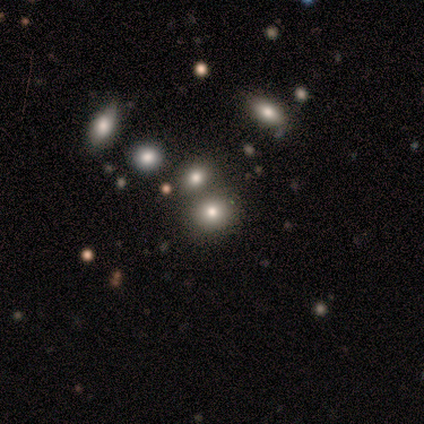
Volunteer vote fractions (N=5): Smooth or featured?
  - smooth: 80% *
  - star or artifact: 20%
  - featured or disk: 0%
How rounded?
  - round: 75% *
  - in between: 25%
  - cigar-shaped: 0%
Merging?
  - merger: 75% *
  - none: 25%
  - minor disturbance: 0%
  - major disturbance: 0%